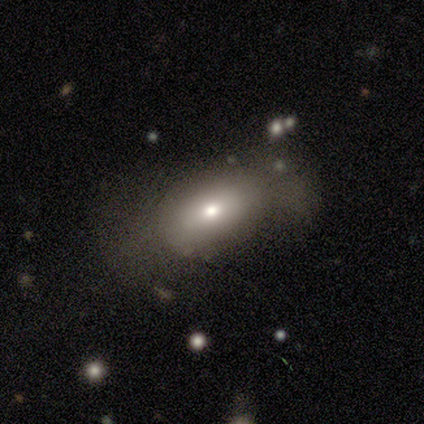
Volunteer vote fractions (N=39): A smooth galaxy with no disk features (62%) that is in between round and cigar-shaped (92%). Merging: none (51%).